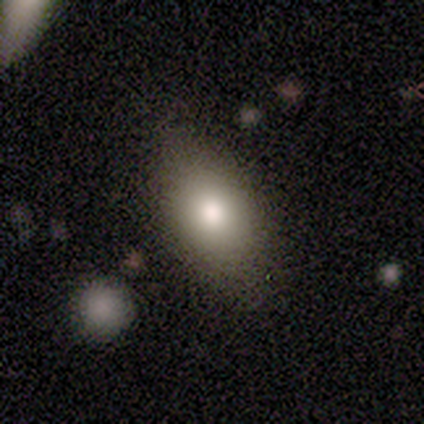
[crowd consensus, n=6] Overall: smooth (83%). How rounded: in between (80%). Merging: none (100%).